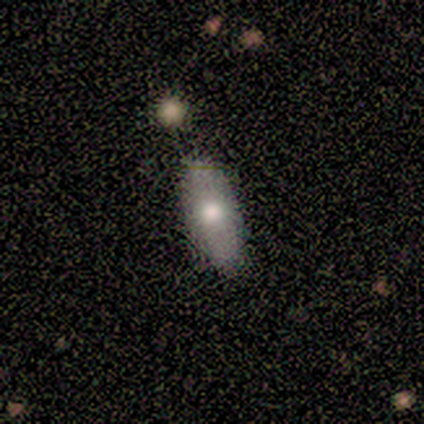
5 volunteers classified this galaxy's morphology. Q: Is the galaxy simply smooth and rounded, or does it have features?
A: smooth — 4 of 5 (80%).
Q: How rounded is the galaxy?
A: in between — 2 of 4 (50%, tied with cigar-shaped).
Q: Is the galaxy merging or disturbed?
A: none — 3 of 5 (60%).